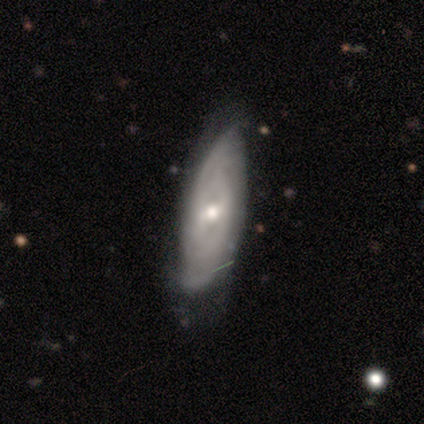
smooth_or_featured: featured or disk (p=0.82) [alt: smooth p=0.13]
disk_edge_on: no (p=0.75) [alt: yes p=0.25]
bar: weak (p=0.50) [alt: no p=0.42]
has_spiral_arms: yes (p=0.83) [alt: no p=0.17]
spiral_winding: tight (p=0.75) [alt: medium p=0.15]
spiral_arm_count: can't tell (p=0.50) [alt: 2 p=0.35]
bulge_size: moderate (p=0.62) [alt: small p=0.29]
merging: none (p=0.68) [alt: minor disturbance p=0.30]